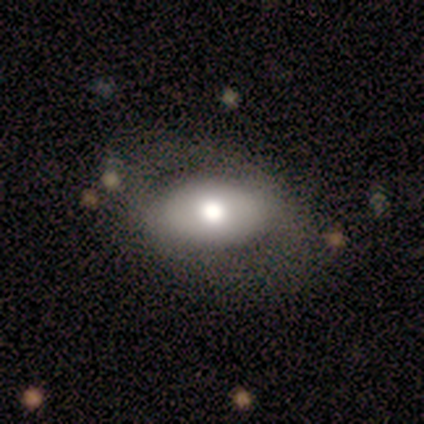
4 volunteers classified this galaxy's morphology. Smooth or featured?
  - smooth: 50% * (tied)
  - featured or disk: 50% * (tied)
  - star or artifact: 0%
How rounded?
  - in between: 100% *
  - round: 0%
  - cigar-shaped: 0%
Merging?
  - none: 75% *
  - minor disturbance: 25%
  - major disturbance: 0%
  - merger: 0%